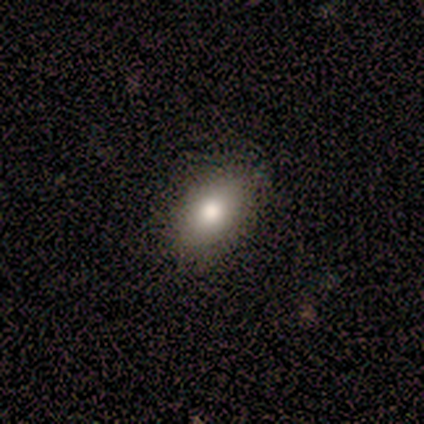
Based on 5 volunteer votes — smooth-or-featured: smooth: 80% | featured or disk: 20% | star or artifact: 0%
  how-rounded: in between: 75% | round: 25% | cigar-shaped: 0%
  merging: minor disturbance: 60% | none: 40% | major disturbance: 0% | merger: 0%